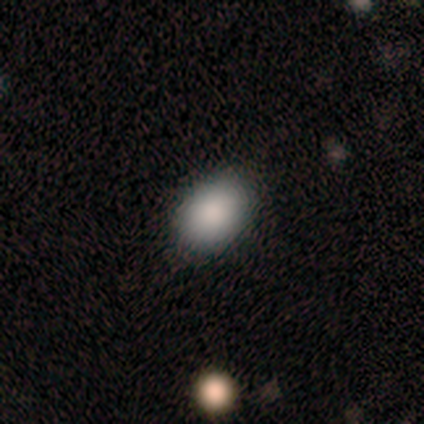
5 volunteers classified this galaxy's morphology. Smooth or featured? smooth (100%)
How rounded? in between (100%)
Merging? none (80%)